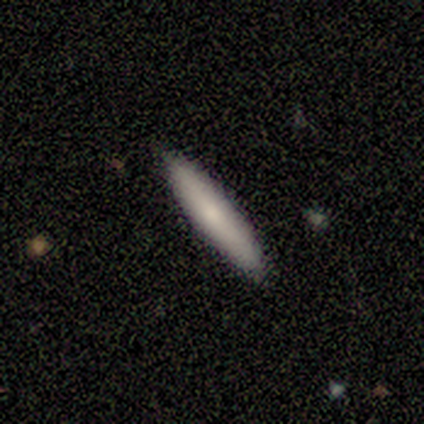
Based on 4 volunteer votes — Morphology: type=smooth (100%); roundness=cigar-shaped (100%); merging=none (100%).